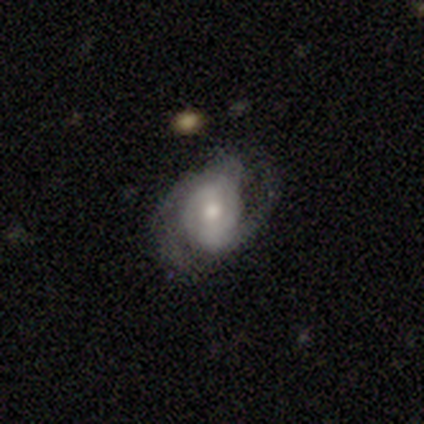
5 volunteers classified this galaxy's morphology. featured or disk 100%, smooth 0%, star or artifact 0%. Down the decision tree: edge-on disk — no (100%); bar — strong (40%, tied with weak); spiral arms — yes (100%); spiral arm count — 2 (60%); spiral winding — medium (60%); bulge size — moderate (100%); merging — none (60%).